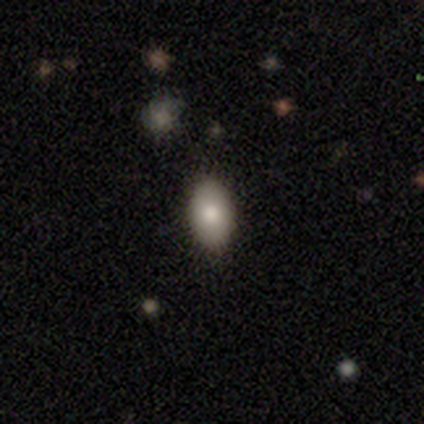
smooth_or_featured: smooth (p=0.60) [alt: featured or disk p=0.40]
how_rounded: in between (p=0.67) [alt: round p=0.33]
merging: none (p=0.60) [alt: minor disturbance p=0.40]